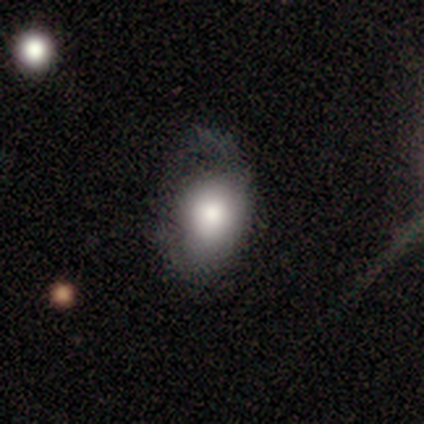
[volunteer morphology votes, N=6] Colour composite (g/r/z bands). It shows a smooth galaxy with no disk features (67%) that is in between round and cigar-shaped (75%). Merging: major disturbance (50%).